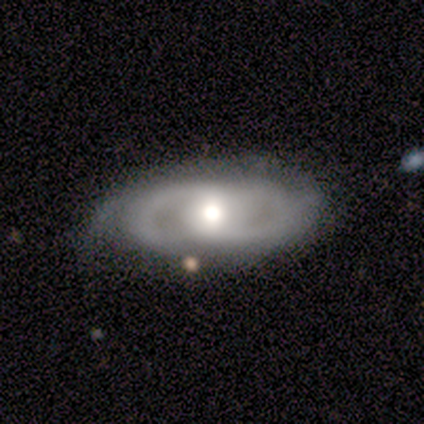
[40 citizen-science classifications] Morphology: type=featured or disk (72%); edge-on=no (97%); bar=no (82%); spiral arms=yes (68%); winding=tight (63%); arm count=2 (63%); bulge=moderate (50%); merging=none (62%).